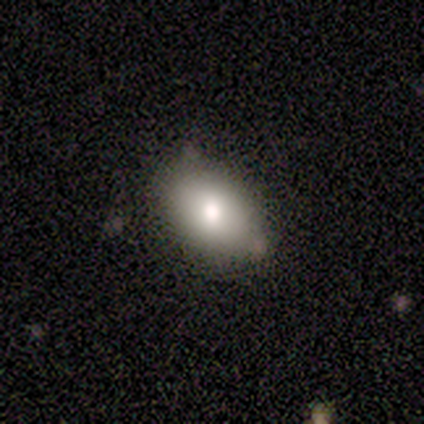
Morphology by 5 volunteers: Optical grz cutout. It shows a smooth galaxy with no disk features (80%) that is in between round and cigar-shaped (100%). Merging: none (60%).